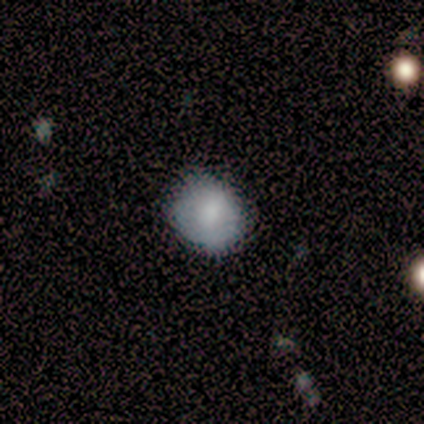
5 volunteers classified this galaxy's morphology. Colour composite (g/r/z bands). It shows a smooth galaxy with no disk features (80%) that is round (50%, tied with in between). Merging: none (50%, tied with minor disturbance).